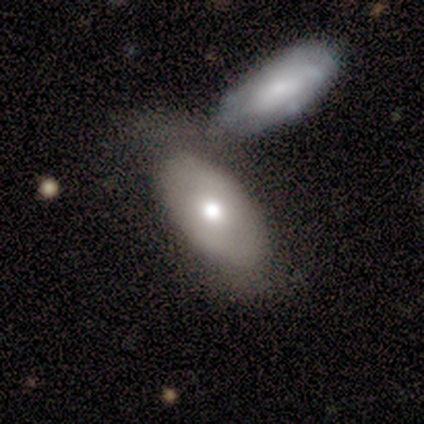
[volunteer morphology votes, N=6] This appears to be a smooth galaxy with no disk features (83%) that is in between round and cigar-shaped (80%). Merging: none (50%, tied with merger).